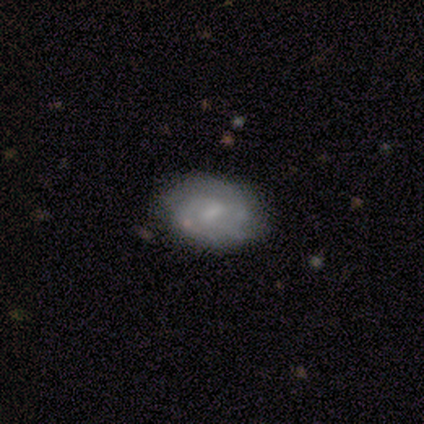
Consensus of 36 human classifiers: Smooth or featured? 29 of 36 (81%) said featured or disk. Edge-on disk? 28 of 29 (97%) said no. Bar? 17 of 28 (61%) said weak. Spiral arms? 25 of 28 (89%) said yes. Spiral winding? 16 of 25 (64%) said tight. Spiral arm count? 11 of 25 (44%) said can't tell. Bulge size? 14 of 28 (50%) said small. Merging? 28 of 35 (80%) said none.